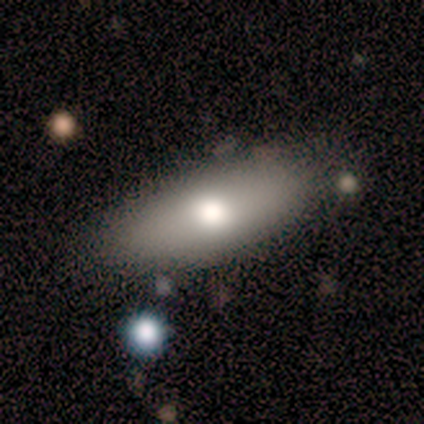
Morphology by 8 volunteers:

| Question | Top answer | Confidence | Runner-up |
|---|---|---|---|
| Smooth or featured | featured or disk | 50% | smooth (38%) |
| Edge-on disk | yes | 50% | tied: no (50%) |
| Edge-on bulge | rounded | 100% | — |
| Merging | none | 71% | minor disturbance (14%) |